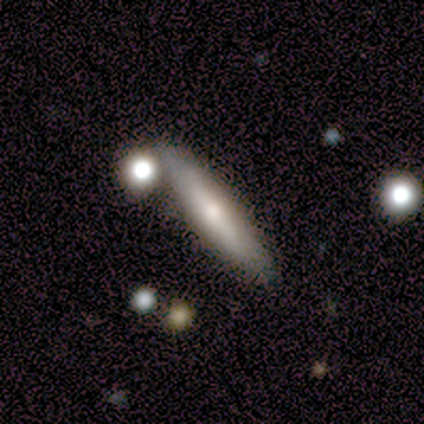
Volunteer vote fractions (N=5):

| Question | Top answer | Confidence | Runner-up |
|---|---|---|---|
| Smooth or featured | featured or disk | 60% | smooth (40%) |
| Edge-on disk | yes | 100% | — |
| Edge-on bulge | rounded | 100% | — |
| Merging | none | 40% | tied: merger (40%) |